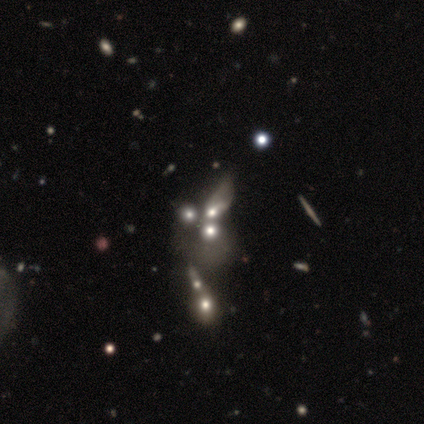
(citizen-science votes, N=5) Smooth or featured? featured or disk (40%, tied with star or artifact)
Edge-on disk? no (100%)
Bar? weak (50%, tied with no)
Spiral arms? no (100%)
Bulge size? large (50%, tied with none)
Merging? merger (67%)